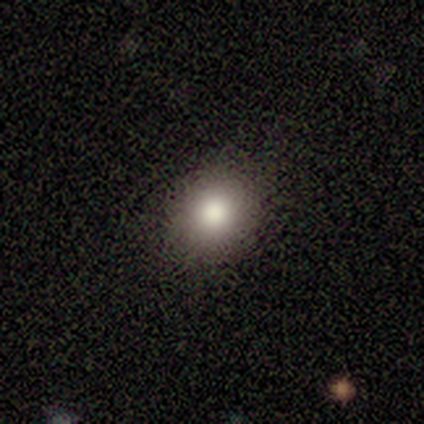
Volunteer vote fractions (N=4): Q: Smooth or featured?
A: smooth (75%); runner-up: star or artifact (25%)
Q: How rounded?
A: round (67%); runner-up: in between (33%)
Q: Merging?
A: none (100%)